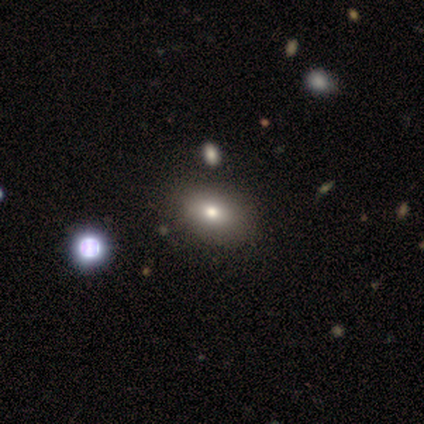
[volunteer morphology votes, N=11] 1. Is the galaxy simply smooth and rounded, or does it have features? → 91% smooth, 9% featured or disk, 0% star or artifact.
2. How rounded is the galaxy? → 90% in between, 10% round, 0% cigar-shaped.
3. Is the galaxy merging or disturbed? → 73% none, 18% minor disturbance, 9% merger, 0% major disturbance.